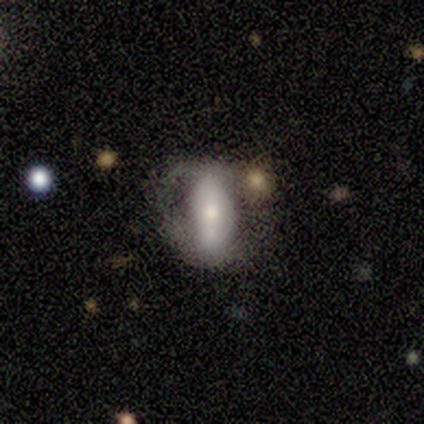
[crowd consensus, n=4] smooth-or-featured: featured or disk: 75% | smooth: 25% | star or artifact: 0%
  disk-edge-on: no: 100% | yes: 0%
    bar: no: 67% | strong: 33% | weak: 0%
    has-spiral-arms: no: 67% | yes: 33%
    bulge-size: small: 67% | moderate: 33% | dominant: 0% | large: 0% | none: 0%
  merging: major disturbance: 50% | none: 25% | minor disturbance: 25% | merger: 0%